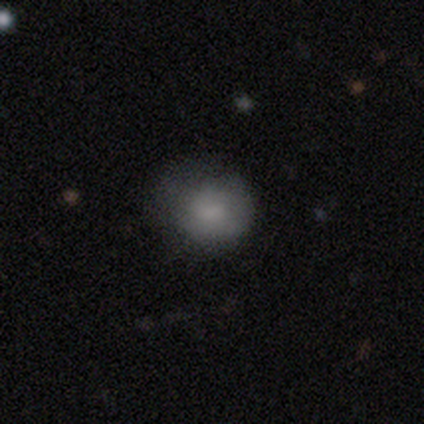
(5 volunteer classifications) Smooth or featured? 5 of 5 (100%) said smooth. How rounded? 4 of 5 (80%) said round. Merging? 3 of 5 (60%) said none.